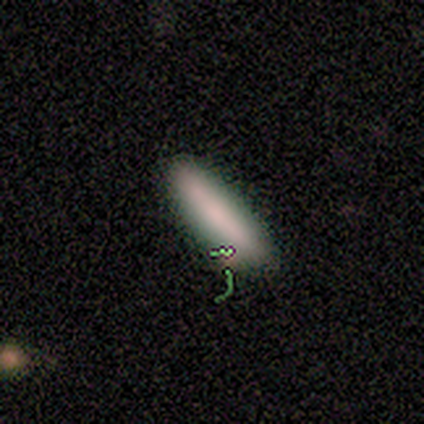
This is likely a smooth galaxy (75%). How rounded: likely cigar-shaped (67%). Merging: likely none (75%).